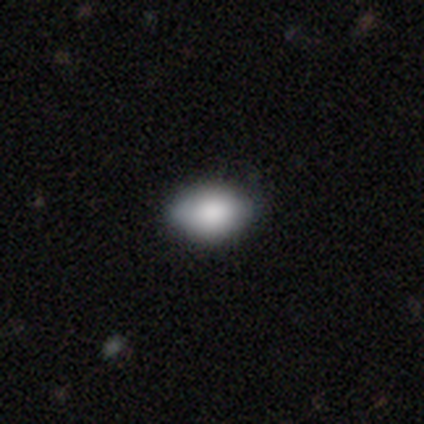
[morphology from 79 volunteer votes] smooth 89%, featured or disk 9%, star or artifact 3%. Down the decision tree: how rounded — in between (91%); merging — none (44%).